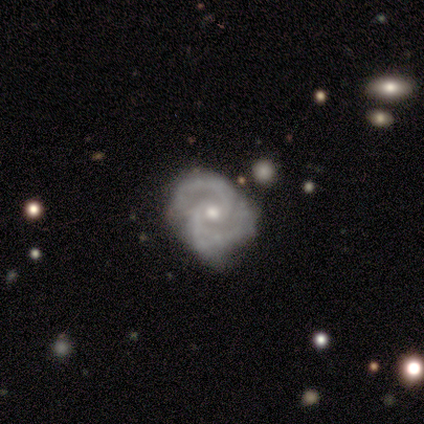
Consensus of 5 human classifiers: This appears to be a featured or disk galaxy (100%) with a weak bar (40%, tied with no), 3 (60%) medium (60%) spiral arms (100%) and a moderate central bulge (60%). Merging: none (60%).